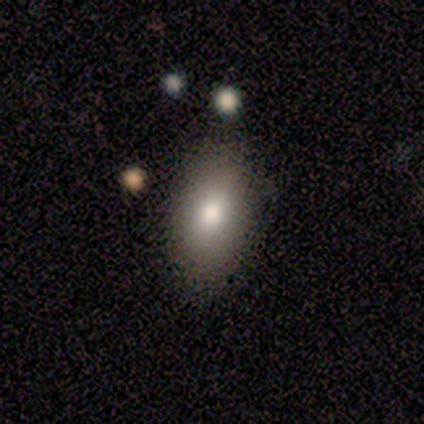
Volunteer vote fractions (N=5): This appears to be a smooth galaxy with no disk features (60%) that is in between round and cigar-shaped (100%). Merging: none (60%).